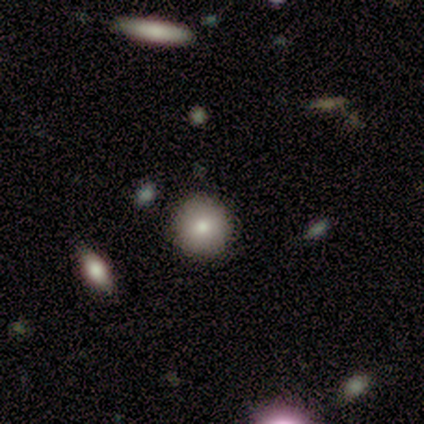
A smooth galaxy with no disk features (80%) that is round (100%).

Vote fractions:
- Smooth or featured? smooth: 80% / star or artifact: 20% / featured or disk: 0%
- How rounded? round: 100% / in between: 0% / cigar-shaped: 0%
- Merging? none: 100% / minor disturbance: 0% / major disturbance: 0% / merger: 0%